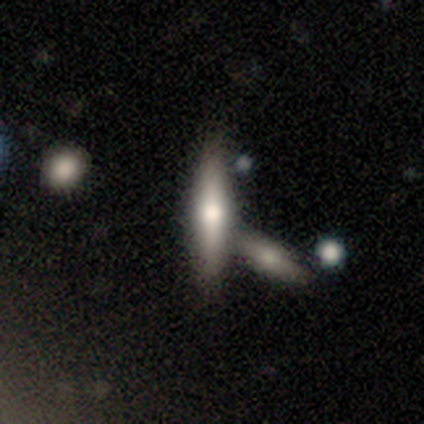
smooth_or_featured: smooth (p=0.51) [alt: featured or disk p=0.43]
how_rounded: cigar-shaped (p=0.85) [alt: in between p=0.15]
merging: none (p=0.55) [alt: merger p=0.38]